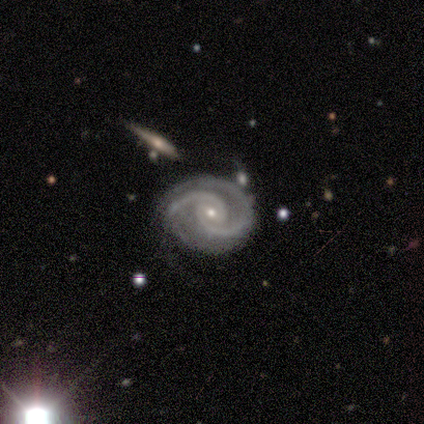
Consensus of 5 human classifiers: Smooth or featured? featured or disk (100%)
Edge-on disk? no (100%)
Bar? weak (60%)
Spiral arms? yes (100%)
Spiral winding? medium (40%, tied with loose)
Spiral arm count? 2 (100%)
Bulge size? moderate (60%)
Merging? none (100%)